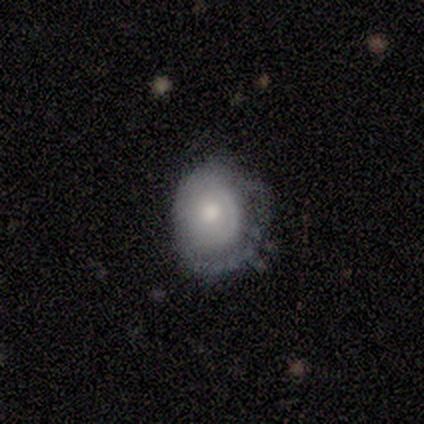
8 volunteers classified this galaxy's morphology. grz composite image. It shows a featured or disk galaxy (88%) with no bar (86%), no spiral arms (57%) and a small central bulge (57%). Merging: minor disturbance (75%).